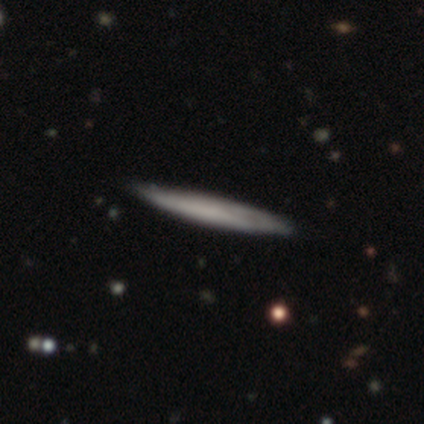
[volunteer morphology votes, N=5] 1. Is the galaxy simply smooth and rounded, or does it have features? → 60% featured or disk, 40% smooth, 0% star or artifact.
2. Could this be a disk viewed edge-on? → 100% yes, 0% no.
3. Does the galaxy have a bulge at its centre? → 100% none, 0% boxy, 0% rounded.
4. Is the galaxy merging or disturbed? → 100% none, 0% minor disturbance, 0% major disturbance, 0% merger.